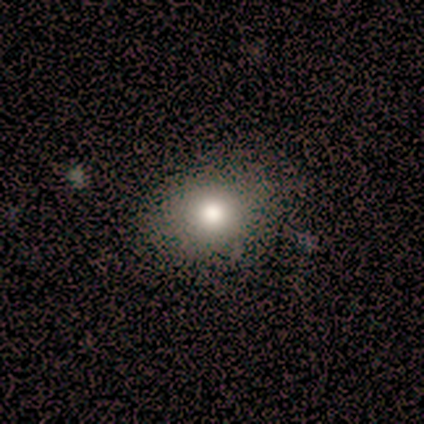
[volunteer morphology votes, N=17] Smooth or featured: smooth — 71% (star or artifact — 24%)
How rounded: round — 67% (in between — 33%)
Merging: none — 77% (minor disturbance — 23%)